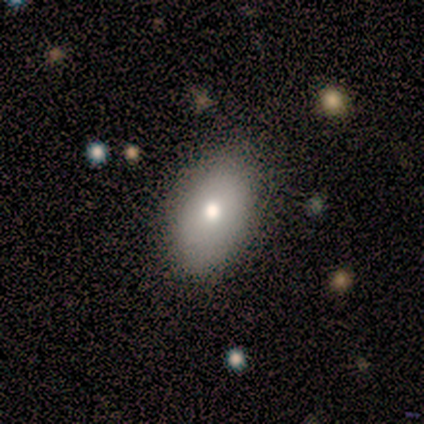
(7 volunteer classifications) smooth 71%, featured or disk 29%, star or artifact 0%. Down the decision tree: how rounded — in between (100%); merging — none (71%).